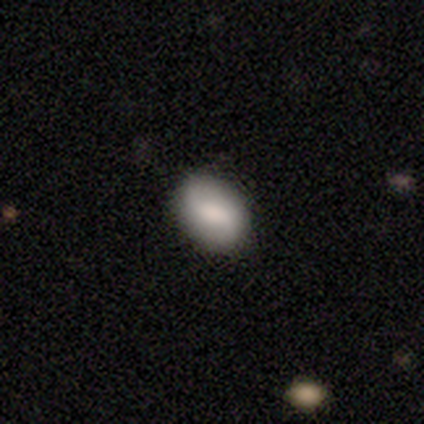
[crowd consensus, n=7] Smooth or featured: featured or disk — 57% (smooth — 43%)
Edge-on disk: no — 100%
Bar: no — 50% (strong — 25%)
Spiral arms: yes — 100%
Spiral winding: medium — 50% (tied with loose — 50%)
Spiral arm count: 2 — 100%
Bulge size: moderate — 75% (none — 25%)
Merging: none — 57% (minor disturbance — 43%)